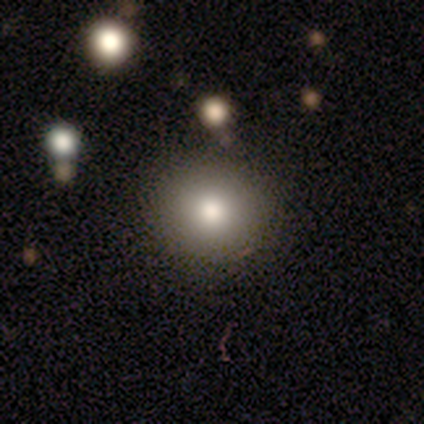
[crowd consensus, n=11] Morphology: type=smooth (64%); roundness=round (100%); merging=none (89%).